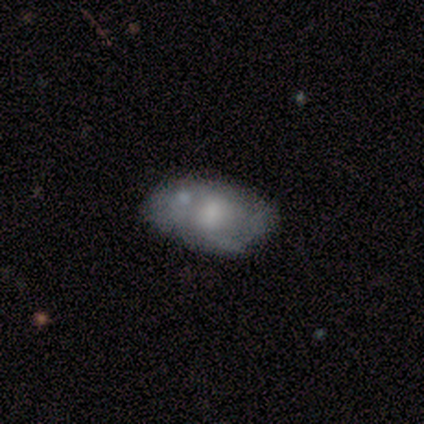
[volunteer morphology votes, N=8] Volunteers were most divided on "smooth or featured": smooth: 50%, featured or disk: 38%, star or artifact: 12%. More confident: how rounded — in between (100%); merging — none (57%).